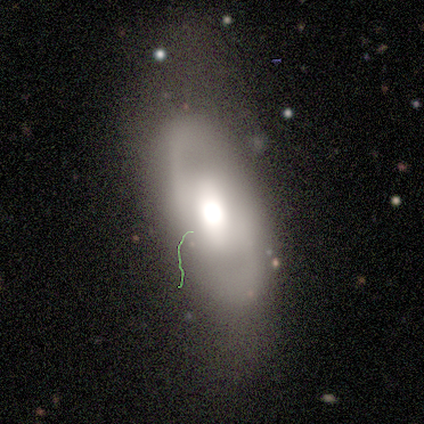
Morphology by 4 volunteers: A featured or disk galaxy (75%) with no bar (100%), 2 (100%) medium (100%) spiral arms (67%) and a moderate central bulge (67%). Merging: none (100%).